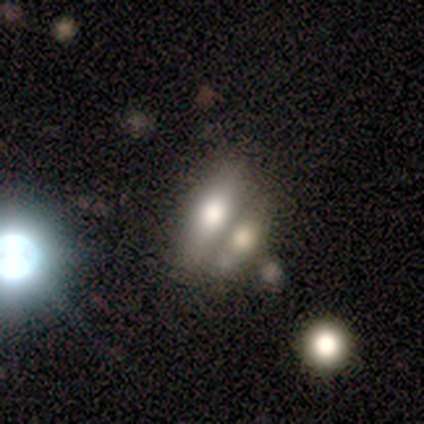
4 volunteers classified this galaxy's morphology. A featured or disk galaxy (50%, tied with star or artifact) viewed edge-on (100%) with a rounded central bulge (100%). Merging: none (50%, tied with minor disturbance).